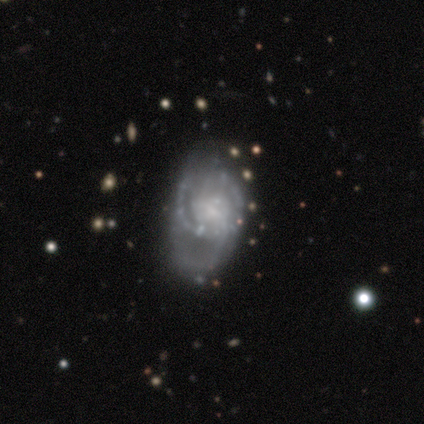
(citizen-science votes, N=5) Smooth or featured: featured or disk — 60% (smooth — 40%)
Edge-on disk: no — 100%
Bar: no — 100%
Spiral arms: yes — 100%
Spiral winding: medium — 67% (tight — 33%)
Spiral arm count: 2 — 33% (tied with 3 — 33%; can't tell — 33%)
Bulge size: moderate — 33% (tied with small — 33%; none — 33%)
Merging: none — 40% (minor disturbance — 20%)